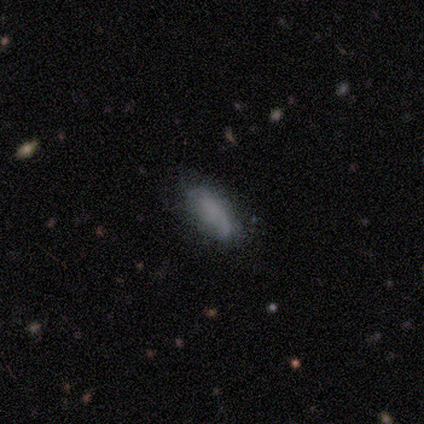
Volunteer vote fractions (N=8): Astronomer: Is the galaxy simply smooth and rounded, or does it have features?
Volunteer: smooth — 62%.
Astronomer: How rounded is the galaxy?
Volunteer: in between — 100%.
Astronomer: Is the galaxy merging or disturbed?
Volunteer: none — 62%.